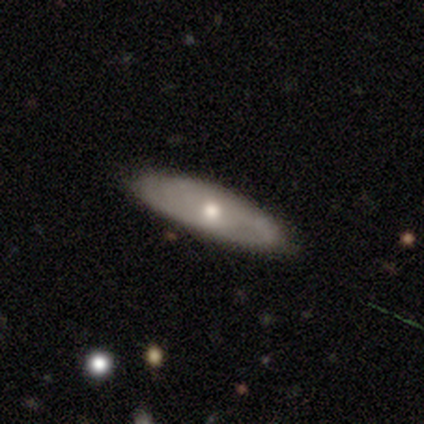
Smooth or featured?
  - smooth: 60% *
  - featured or disk: 40%
  - star or artifact: 0%
How rounded?
  - cigar-shaped: 67% *
  - in between: 33%
  - round: 0%
Merging?
  - none: 100% *
  - minor disturbance: 0%
  - major disturbance: 0%
  - merger: 0%